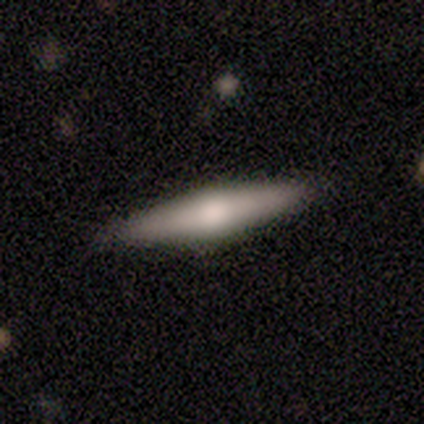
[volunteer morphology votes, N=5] Overall: smooth (60%; featured or disk 40%). How rounded: cigar-shaped (100%). Merging: none (80%).